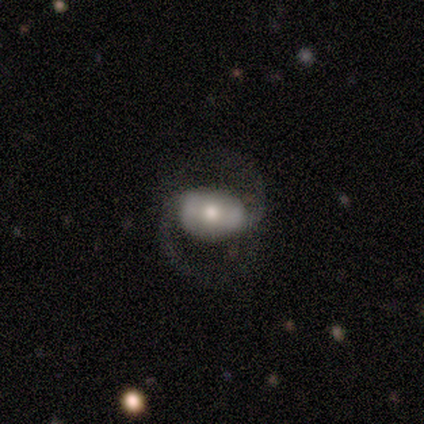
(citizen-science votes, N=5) A smooth galaxy with no disk features (80%) that is round (50%, tied with in between). Merging: none (40%, tied with minor disturbance).